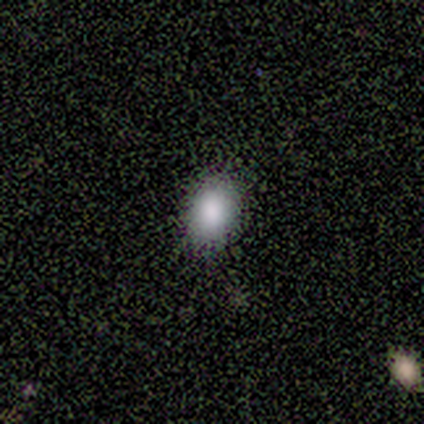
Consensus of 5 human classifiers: smooth-or-featured: smooth: 100% | featured or disk: 0% | star or artifact: 0%
  how-rounded: round: 60% | in between: 40% | cigar-shaped: 0%
  merging: none: 100% | minor disturbance: 0% | major disturbance: 0% | merger: 0%